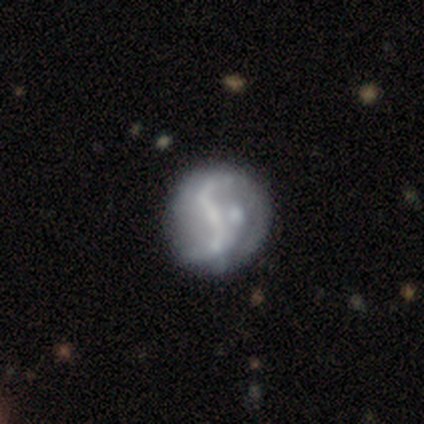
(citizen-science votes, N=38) This appears to be a featured or disk galaxy (82%) with a strong bar (39%), 2 (92%) loose (92%) spiral arms (84%) and a small central bulge (48%). Merging: none (37%).